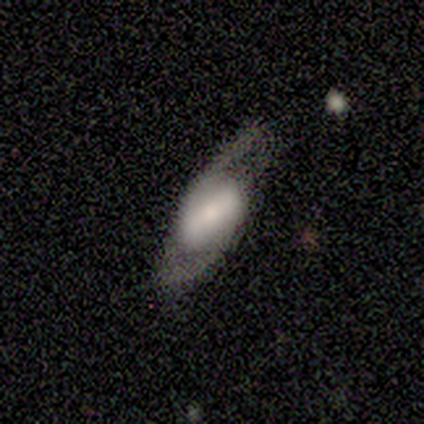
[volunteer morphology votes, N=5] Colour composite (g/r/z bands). It shows a smooth galaxy with no disk features (60%) that is in between round and cigar-shaped (100%). Merging: minor disturbance (40%, tied with major disturbance).